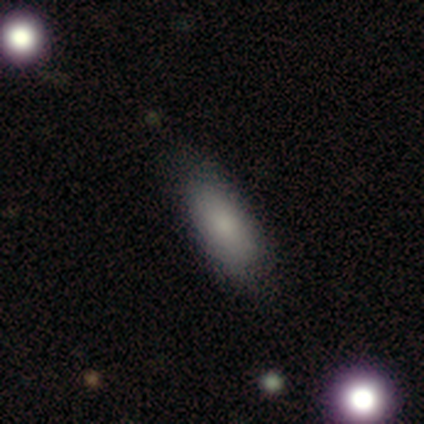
Morphology: type=smooth (62%); roundness=in between (80%); merging=none (71%).